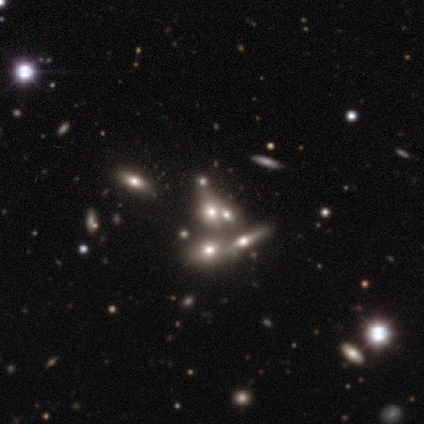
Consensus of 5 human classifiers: Smooth or featured? 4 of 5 (80%) said star or artifact.